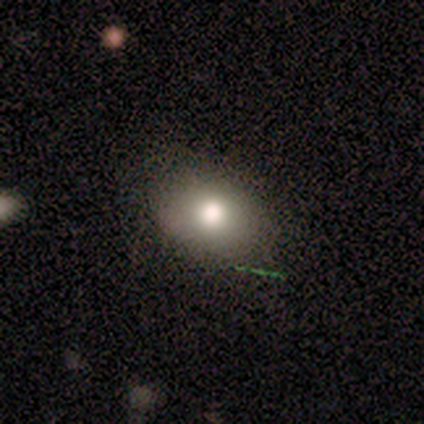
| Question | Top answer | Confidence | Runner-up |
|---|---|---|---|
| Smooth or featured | smooth | 57% | star or artifact (29%) |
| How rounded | in between | 75% | round (25%) |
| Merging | none | 100% | — |